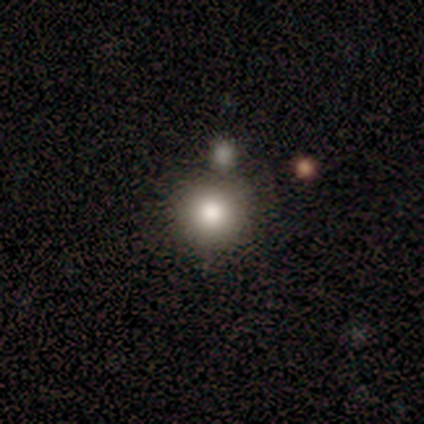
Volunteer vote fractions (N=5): Smooth or featured: smooth — 40% (tied with star or artifact — 40%)
How rounded: round — 100%
Merging: none — 67% (merger — 33%)